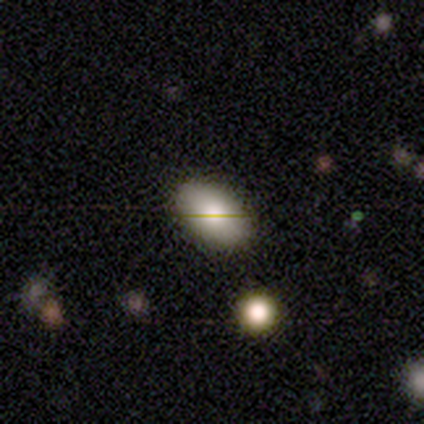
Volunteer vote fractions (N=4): smooth_or_featured: smooth (p=0.75) [alt: featured or disk p=0.25]
how_rounded: in between (p=1.00)
merging: none (p=1.00)